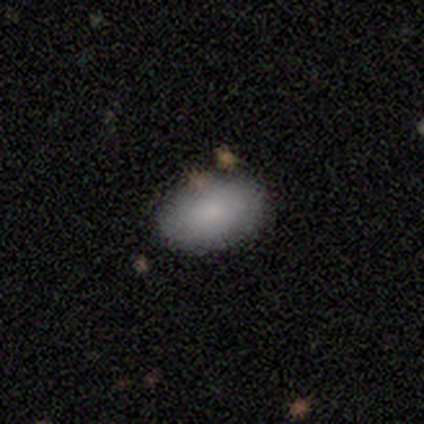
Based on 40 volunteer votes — This is likely a smooth galaxy (78%). How rounded: clearly in between (90%). Merging: clearly none (84%).